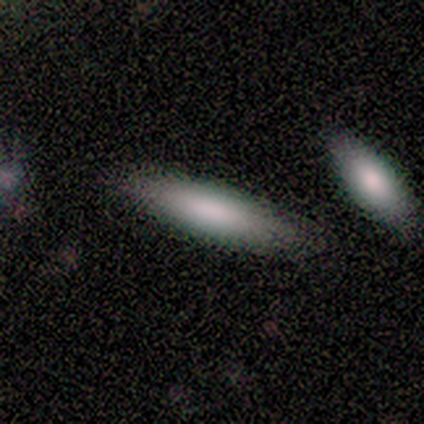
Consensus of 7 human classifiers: A smooth galaxy with no disk features (100%) that is cigar-shaped (86%).

Vote fractions:
- Smooth or featured? smooth: 100% / featured or disk: 0% / star or artifact: 0%
- How rounded? cigar-shaped: 86% / in between: 14% / round: 0%
- Merging? none: 86% / major disturbance: 14% / minor disturbance: 0% / merger: 0%